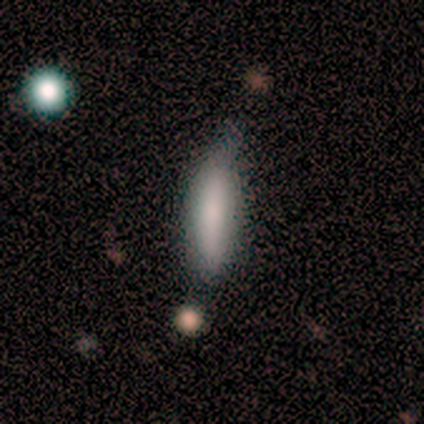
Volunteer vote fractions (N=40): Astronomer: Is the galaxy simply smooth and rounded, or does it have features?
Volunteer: smooth — 72%.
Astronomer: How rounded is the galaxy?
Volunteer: cigar-shaped — 69%.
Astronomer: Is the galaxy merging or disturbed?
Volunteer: minor disturbance — 51%.